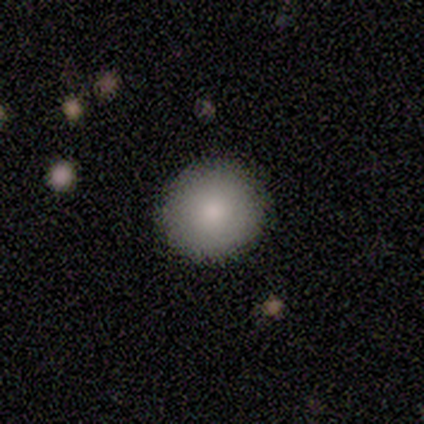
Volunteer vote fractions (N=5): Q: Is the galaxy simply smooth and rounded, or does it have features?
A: smooth — 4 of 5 (80%).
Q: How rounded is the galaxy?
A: round — 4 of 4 (100%).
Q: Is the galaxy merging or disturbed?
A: none — 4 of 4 (100%).